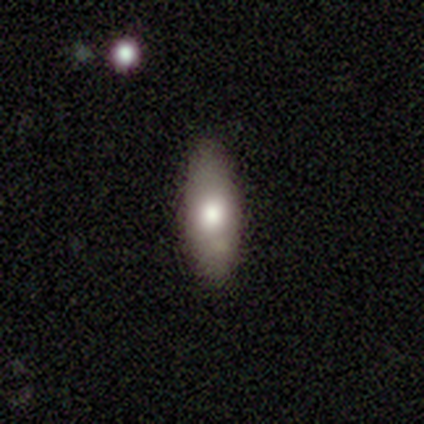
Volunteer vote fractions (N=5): smooth 80%, star or artifact 20%, featured or disk 0%. Down the decision tree: how rounded — cigar-shaped (50%); merging — none (100%).